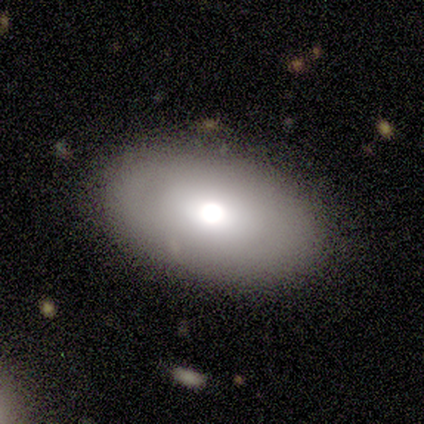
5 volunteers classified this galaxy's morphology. Volunteers were most divided on "smooth or featured" (2-way tie): smooth: 40%, featured or disk: 40%, star or artifact: 20%. More confident: how rounded — in between (100%); merging — none (100%).